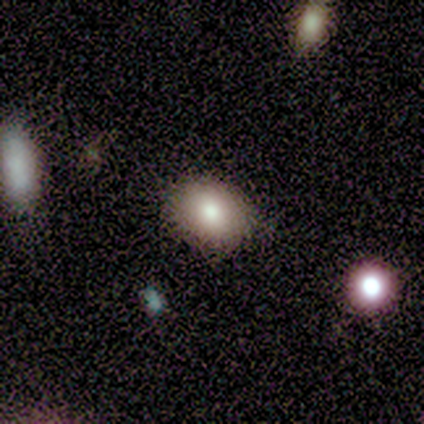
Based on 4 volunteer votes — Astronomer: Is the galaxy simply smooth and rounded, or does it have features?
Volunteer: smooth — 100%.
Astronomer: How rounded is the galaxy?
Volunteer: in between — 75%.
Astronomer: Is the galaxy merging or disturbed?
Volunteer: none — 75%.